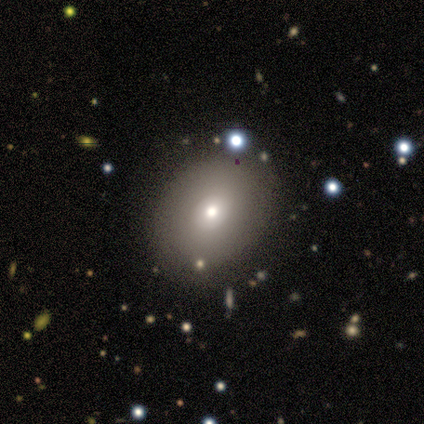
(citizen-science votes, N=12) Smooth or featured: smooth — 92% (featured or disk — 8%)
How rounded: round — 45% (tied with in between — 45%)
Merging: none — 100%